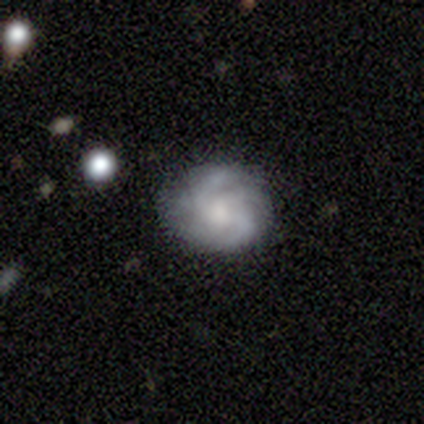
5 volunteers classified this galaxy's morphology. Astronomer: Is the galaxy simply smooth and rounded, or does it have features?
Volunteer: featured or disk — 60% (runner-up: smooth, 40%).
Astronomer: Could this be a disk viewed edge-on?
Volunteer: no — 100%.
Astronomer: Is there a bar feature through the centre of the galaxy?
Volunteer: weak — 67%.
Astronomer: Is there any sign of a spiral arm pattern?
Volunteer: yes — 100%.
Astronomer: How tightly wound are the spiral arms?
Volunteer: medium — 67%.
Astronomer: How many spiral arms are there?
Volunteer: can't tell — 67%.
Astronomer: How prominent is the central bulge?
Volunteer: large — 67%.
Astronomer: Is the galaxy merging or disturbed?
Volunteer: none — 80%.